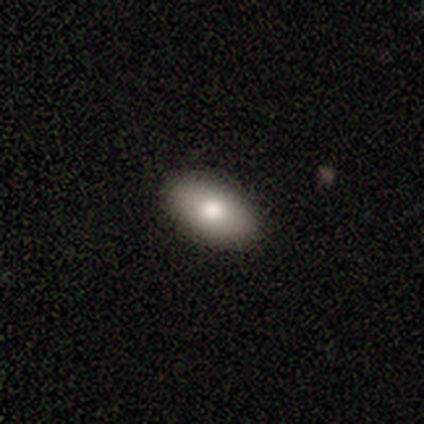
A smooth galaxy with no disk features (79%) that is in between round and cigar-shaped (97%). Merging: none (98%).